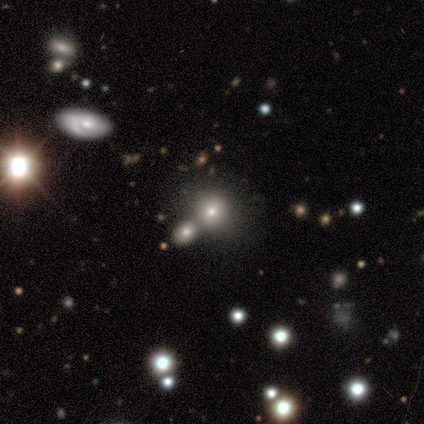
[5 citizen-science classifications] Morphology: type=smooth (40%, tied with featured or disk); roundness=round (100%); merging=none (75%).